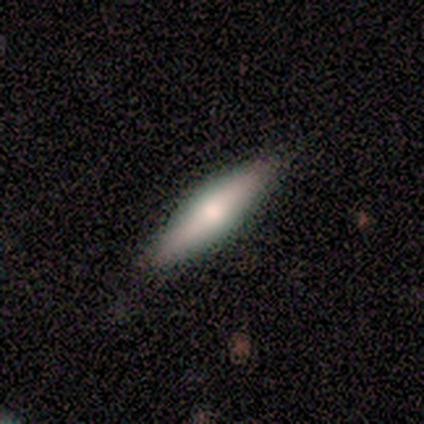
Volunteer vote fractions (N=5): Overall: featured or disk (60%; smooth 40%). Edge-on disk: yes (100%). Edge-on bulge: rounded (100%). Merging: none (100%).